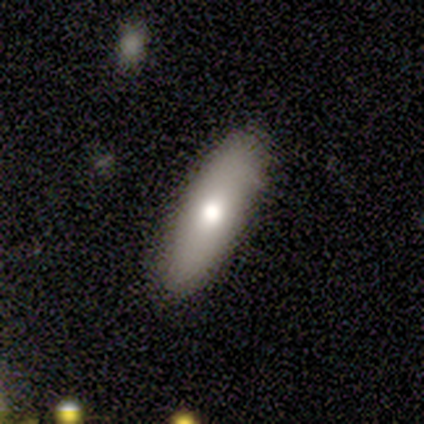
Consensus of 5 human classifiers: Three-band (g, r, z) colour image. It shows a featured or disk galaxy (60%) with no bar (100%), no spiral arms (100%) and a moderate central bulge (67%). Merging: none (80%).